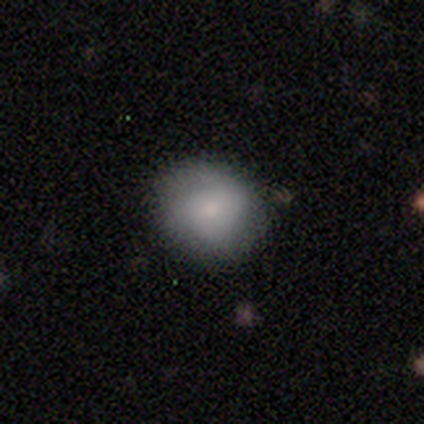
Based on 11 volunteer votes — This appears to be a smooth galaxy with no disk features (64%) that is round (57%). Merging: none (78%).